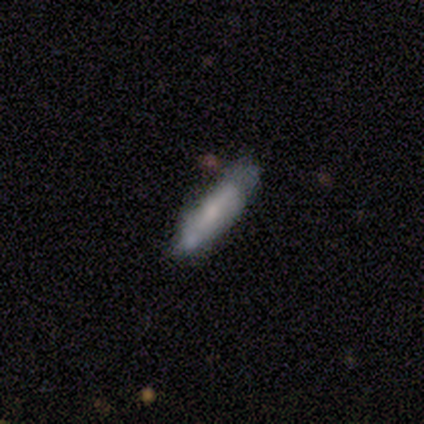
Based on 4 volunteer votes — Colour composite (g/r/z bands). It shows a smooth galaxy with no disk features (75%) that is in between round and cigar-shaped (67%). Merging: none (50%).